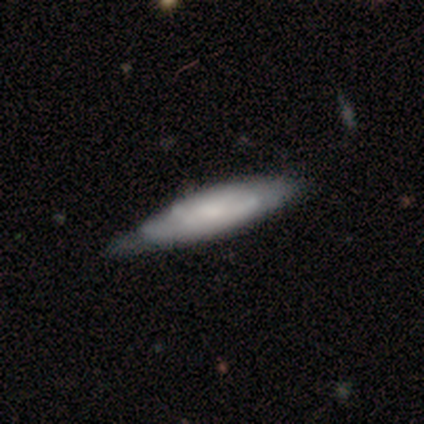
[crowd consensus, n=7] smooth 71%, featured or disk 29%, star or artifact 0%. Down the decision tree: how rounded — cigar-shaped (80%); merging — minor disturbance (71%).